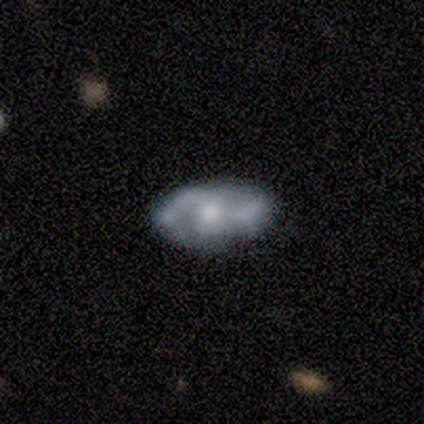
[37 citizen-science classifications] Smooth or featured? 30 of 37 (81%) said featured or disk. Edge-on disk? 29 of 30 (97%) said no. Bar? 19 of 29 (66%) said no. Spiral arms? 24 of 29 (83%) said yes. Spiral winding? 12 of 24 (50%) said medium. Spiral arm count? 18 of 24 (75%) said 2. Bulge size? 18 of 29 (62%) said moderate. Merging? 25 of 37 (68%) said none.